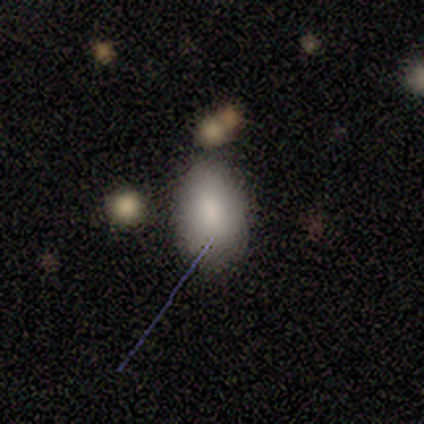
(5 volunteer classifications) Overall: smooth (100%). How rounded: in between (80%). Merging: minor disturbance (60%; none 20%).